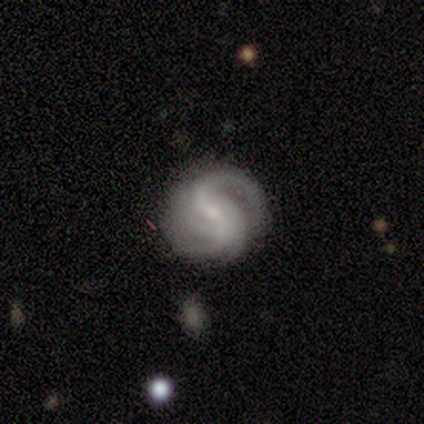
Smooth or featured? 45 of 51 (88%) said featured or disk. Edge-on disk? 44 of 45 (98%) said no. Bar? 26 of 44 (59%) said weak. Spiral arms? 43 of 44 (98%) said yes. Spiral winding? 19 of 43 (44%) said medium. Spiral arm count? 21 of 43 (49%) said 2. Bulge size? 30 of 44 (68%) said small. Merging? 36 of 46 (78%) said none.